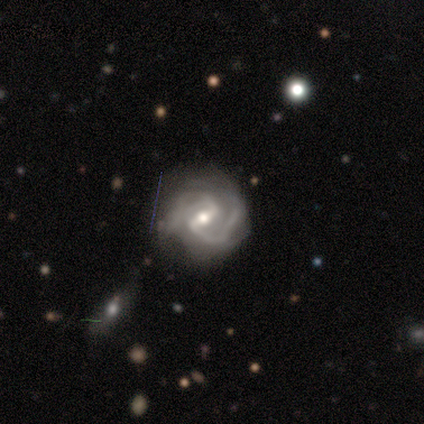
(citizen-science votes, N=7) Smooth or featured?
  - featured or disk: 100% *
  - smooth: 0%
  - star or artifact: 0%
Edge-on disk?
  - no: 100% *
  - yes: 0%
Bar?
  - weak: 57% *
  - strong: 29%
  - no: 14%
Spiral arms?
  - yes: 100% *
  - no: 0%
Spiral winding?
  - medium: 57% *
  - tight: 43%
  - loose: 0%
Spiral arm count?
  - 2: 57% *
  - 3: 29%
  - can't tell: 14%
  - 1: 0%
  - 4: 0%
  - more than 4: 0%
Bulge size?
  - moderate: 57% *
  - small: 43%
  - dominant: 0%
  - large: 0%
  - none: 0%
Merging?
  - none: 71% *
  - minor disturbance: 14%
  - major disturbance: 14%
  - merger: 0%